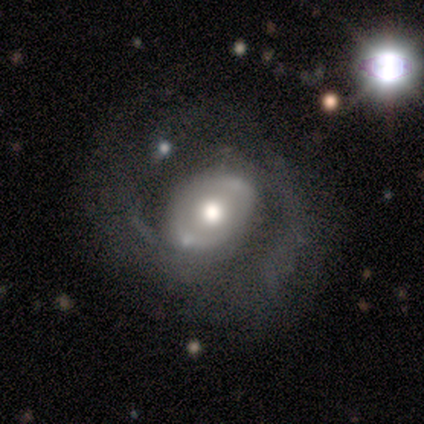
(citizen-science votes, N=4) Overall: featured or disk (75%). Edge-on disk: no (100%). Bar: no (67%; strong 33%). Spiral arms: yes (67%; no 33%). Spiral arm count: 2 (50%, tied with 3). Spiral winding: medium (100%). Bulge size: moderate (67%; large 33%). Merging: major disturbance (50%; none 25%).